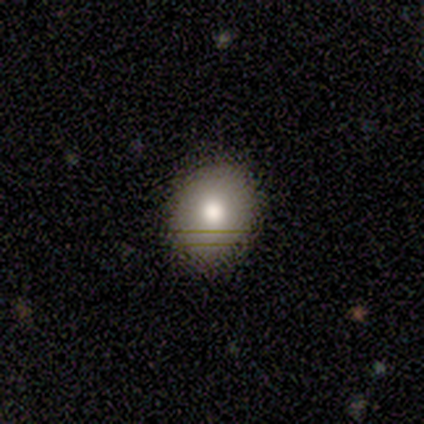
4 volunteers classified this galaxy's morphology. Smooth or featured: smooth — 100%
How rounded: round — 75% (in between — 25%)
Merging: none — 100%